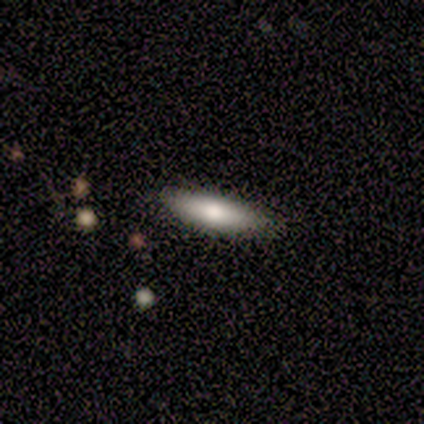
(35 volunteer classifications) A smooth galaxy with no disk features (71%) that is cigar-shaped (88%).

Vote fractions:
- Smooth or featured? smooth: 71% / featured or disk: 17% / star or artifact: 11%
- How rounded? cigar-shaped: 88% / in between: 12% / round: 0%
- Merging? none: 84% / minor disturbance: 6% / major disturbance: 6% / merger: 3%